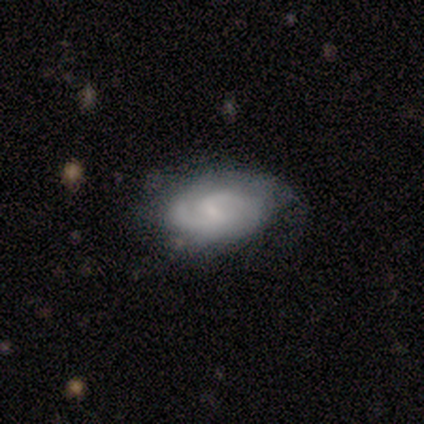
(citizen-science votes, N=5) smooth_or_featured: featured or disk (p=0.80) [alt: smooth p=0.20]
disk_edge_on: no (p=0.75) [alt: yes p=0.25]
bar: weak (p=0.67) [alt: strong p=0.33]
has_spiral_arms: yes (p=1.00)
spiral_winding: tight (p=1.00)
spiral_arm_count: 2 (p=1.00)
bulge_size: moderate (p=0.33) [tied with: small p=0.33, none p=0.33]
merging: none (p=0.60) [alt: minor disturbance p=0.40]